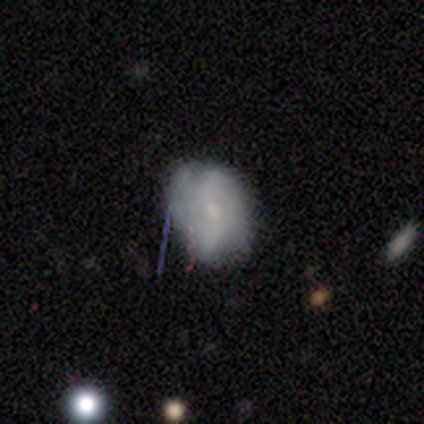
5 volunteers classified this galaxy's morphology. This appears to be a featured or disk galaxy (60%) with no bar (67%), 4 (67%) tight (67%) spiral arms (100%) and a small central bulge (100%). Merging: none (80%).